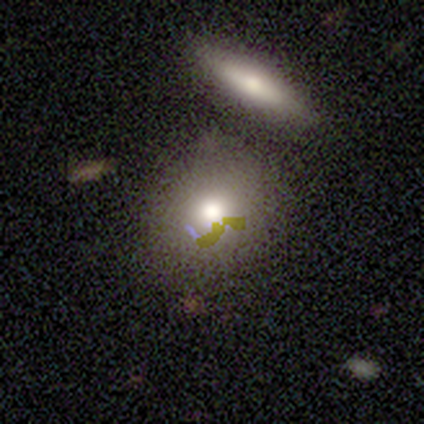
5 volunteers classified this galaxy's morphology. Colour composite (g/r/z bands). It shows a smooth galaxy with no disk features (80%) that is round (75%). Merging: none (25%, tied with minor disturbance, major disturbance and merger).